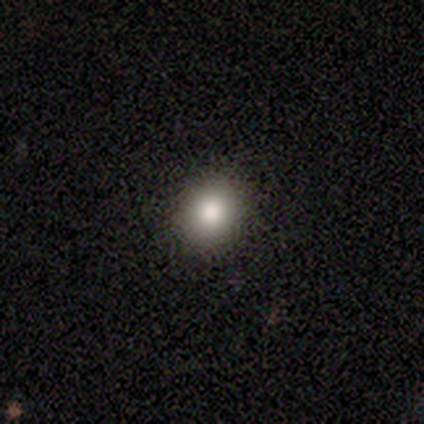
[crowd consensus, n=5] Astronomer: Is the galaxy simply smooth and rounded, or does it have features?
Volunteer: smooth — 80%.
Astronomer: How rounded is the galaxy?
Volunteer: round — 75%.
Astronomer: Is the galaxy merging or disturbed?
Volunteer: none — 60% (runner-up: minor disturbance, 40%).